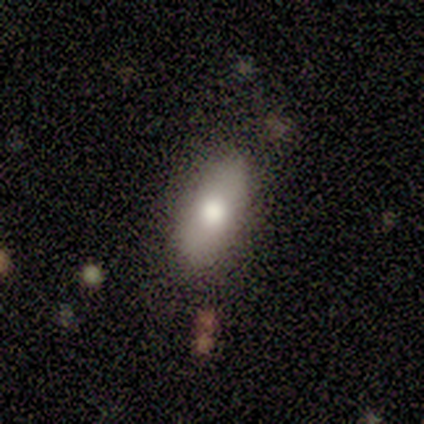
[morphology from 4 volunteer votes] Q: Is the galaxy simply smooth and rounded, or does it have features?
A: smooth — 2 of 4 (50%, tied with featured or disk).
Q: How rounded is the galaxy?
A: in between — 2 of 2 (100%).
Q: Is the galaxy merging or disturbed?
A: none — 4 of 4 (100%).